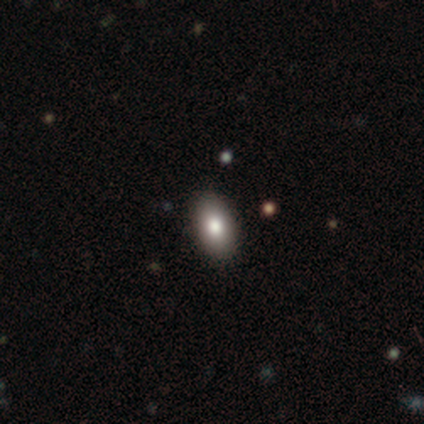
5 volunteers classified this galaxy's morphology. This appears to be a smooth galaxy with no disk features (100%) that is in between round and cigar-shaped (100%). Merging: none (100%).